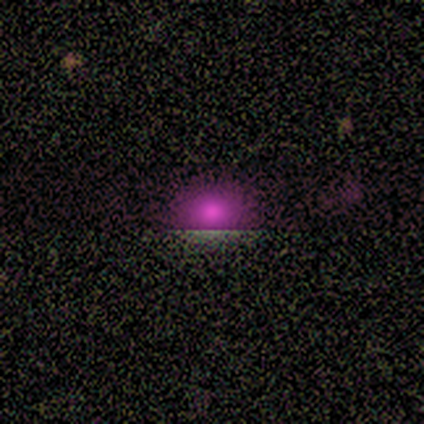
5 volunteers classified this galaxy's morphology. This is marginally a smooth galaxy (40%, tied with star or artifact). How rounded: clearly round (100%). Merging: clearly none (100%).